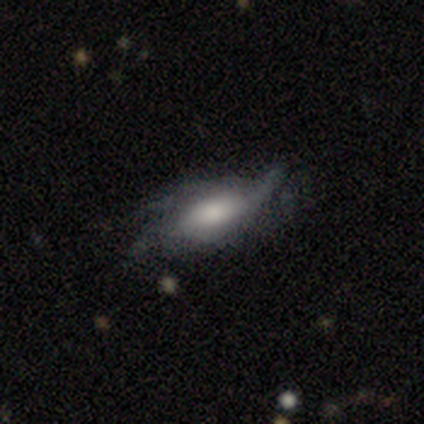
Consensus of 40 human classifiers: Smooth or featured: featured or disk — 72% (smooth — 25%)
Edge-on disk: no — 79% (yes — 21%)
Bar: weak — 43% (tied with no — 43%)
Spiral arms: yes — 83% (no — 17%)
Spiral winding: loose — 74% (medium — 21%)
Spiral arm count: 2 — 32% (can't tell — 26%)
Bulge size: large — 39% (moderate — 30%)
Merging: none — 54% (minor disturbance — 31%)